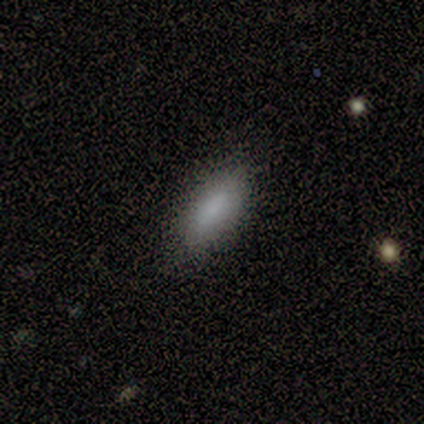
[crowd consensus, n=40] Smooth or featured: smooth — 88% (featured or disk — 8%)
How rounded: in between — 71% (cigar-shaped — 29%)
Merging: none — 84% (minor disturbance — 11%)